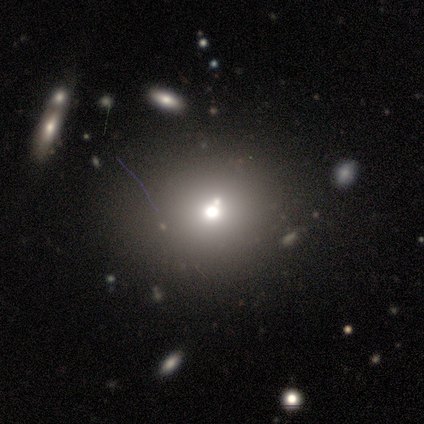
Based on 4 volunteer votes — Overall: smooth (50%, tied with star or artifact). How rounded: round (100%). Merging: none (100%).